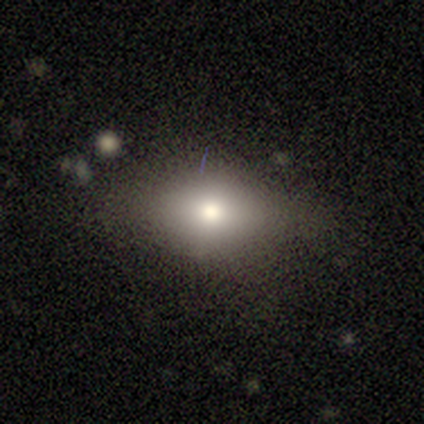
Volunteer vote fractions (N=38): A smooth galaxy with no disk features (61%) that is in between round and cigar-shaped (78%).

Vote fractions:
- Smooth or featured? smooth: 61% / star or artifact: 24% / featured or disk: 16%
- How rounded? in between: 78% / round: 17% / cigar-shaped: 4%
- Merging? none: 62% / minor disturbance: 24% / major disturbance: 10% / merger: 3%